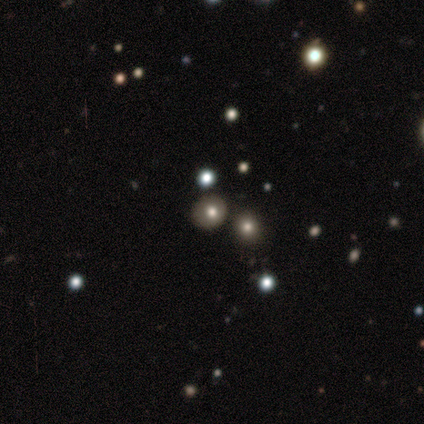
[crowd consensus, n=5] This appears to be a smooth galaxy with no disk features (80%) that is round (100%). Merging: none (75%).